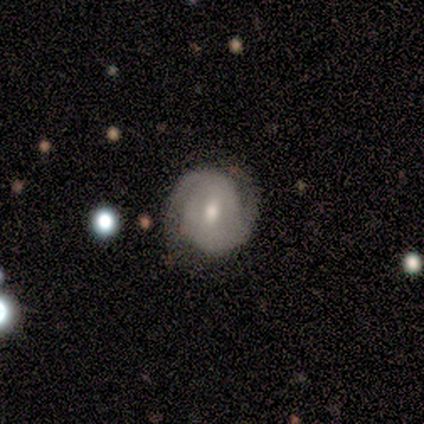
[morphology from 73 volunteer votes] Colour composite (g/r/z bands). It shows a featured or disk galaxy (74%) with a weak bar (57%), 2 (90%) tight (54%) spiral arms (93%) and a moderate central bulge (70%). Merging: none (73%).